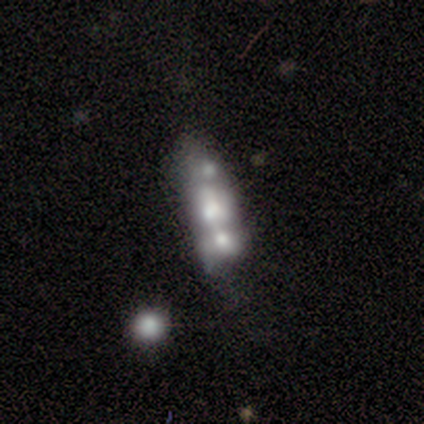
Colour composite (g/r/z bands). It shows a featured or disk galaxy (100%) with no bar (100%), no spiral arms (100%) and a large central bulge (50%, tied with small). Merging: minor disturbance (67%).